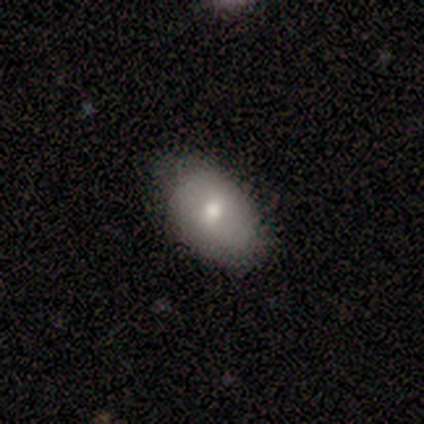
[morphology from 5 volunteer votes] Smooth or featured?
  - smooth: 80% *
  - featured or disk: 20%
  - star or artifact: 0%
How rounded?
  - in between: 100% *
  - round: 0%
  - cigar-shaped: 0%
Merging?
  - none: 100% *
  - minor disturbance: 0%
  - major disturbance: 0%
  - merger: 0%